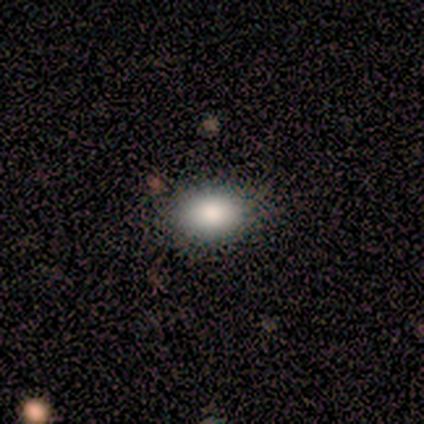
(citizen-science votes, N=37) Smooth or featured? smooth (84%)
How rounded? in between (77%)
Merging? none (85%)